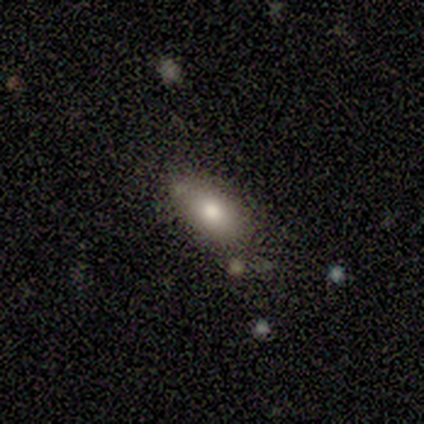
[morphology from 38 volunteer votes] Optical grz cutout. It shows a smooth galaxy with no disk features (71%) that is in between round and cigar-shaped (85%). Merging: none (68%).